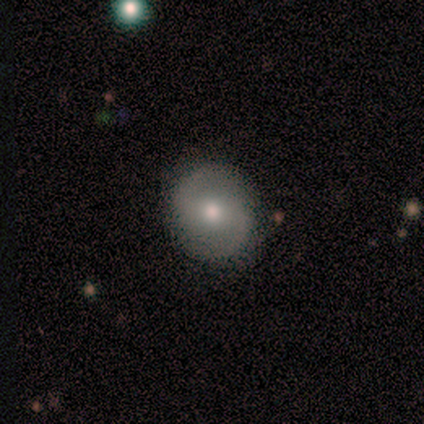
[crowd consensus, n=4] featured or disk 100%, smooth 0%, star or artifact 0%. Down the decision tree: edge-on disk — no (100%); bar — weak (50%, tied with no); spiral arms — yes (100%); spiral arm count — 2 (100%); spiral winding — medium (50%); bulge size — moderate (75%); merging — none (75%).